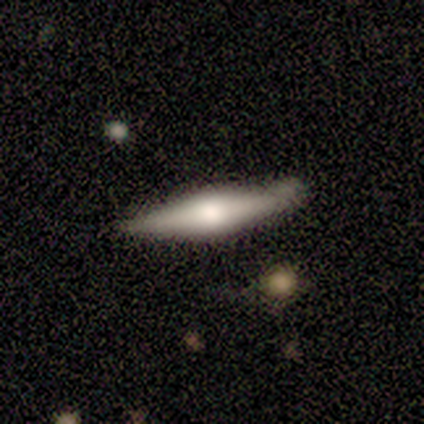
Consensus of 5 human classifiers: Q: Smooth or featured?
A: featured or disk (80%); runner-up: smooth (20%)
Q: Edge-on disk?
A: yes (100%)
Q: Edge-on bulge?
A: rounded (100%)
Q: Merging?
A: none (60%); runner-up: minor disturbance (40%)